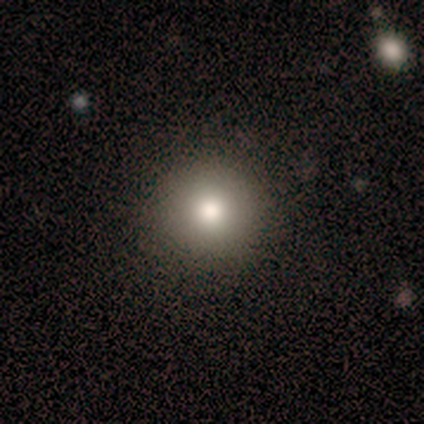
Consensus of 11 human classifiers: Q: Smooth or featured?
A: smooth (64%); runner-up: featured or disk (27%)
Q: How rounded?
A: round (100%)
Q: Merging?
A: none (90%); runner-up: minor disturbance (10%)